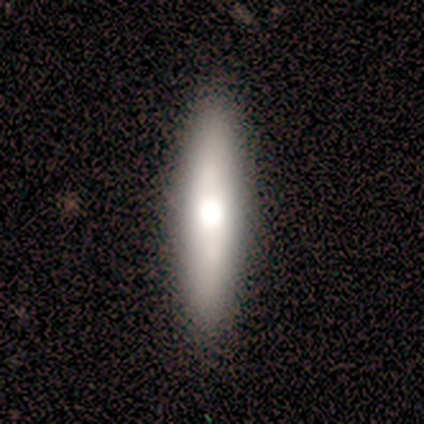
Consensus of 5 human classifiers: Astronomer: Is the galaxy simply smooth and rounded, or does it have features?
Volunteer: smooth — 100%.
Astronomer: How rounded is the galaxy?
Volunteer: cigar-shaped — 80%.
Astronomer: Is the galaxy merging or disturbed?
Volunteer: none — 80%.